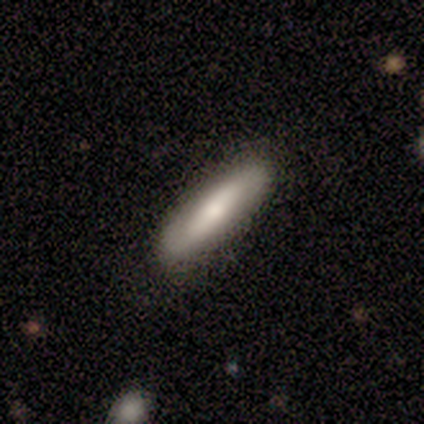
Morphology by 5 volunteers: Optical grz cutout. It shows a smooth galaxy with no disk features (80%) that is cigar-shaped (75%). Merging: none (100%).